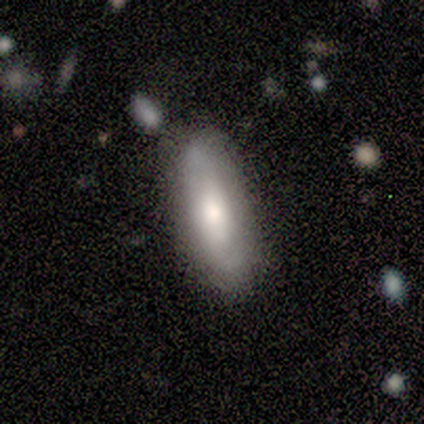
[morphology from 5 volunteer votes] This is clearly a featured or disk galaxy (80%). It is clearly not viewed edge-on (100%). Bar: possibly weak (50%). Spiral arm pattern: likely yes (75%). Spiral arm count: likely 2 (67%). Spiral winding: clearly loose (100%). Central bulge: likely moderate (75%). Merging: clearly none (80%).